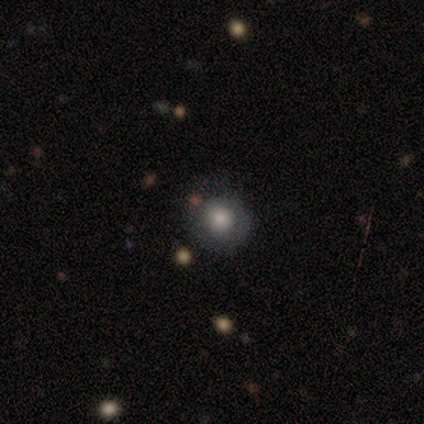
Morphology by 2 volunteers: Volunteers were most divided on "merging" (2-way tie): none: 50%, minor disturbance: 50%, major disturbance: 0%, merger: 0%. More confident: smooth or featured — smooth (100%); how rounded — round (100%).